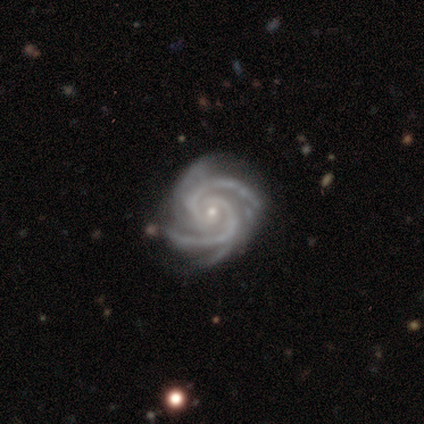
This appears to be a featured or disk galaxy (94%) with no bar (67%), 2 (42%) tight (80%) spiral arms (100%) and a small central bulge (82%). Merging: none (77%).